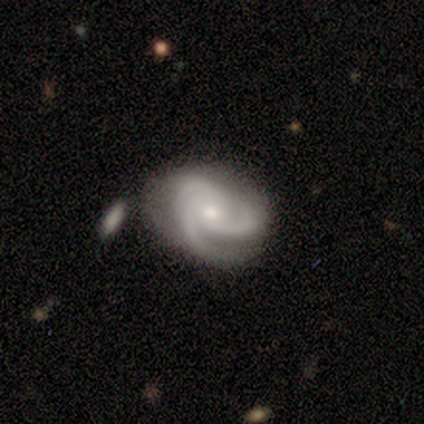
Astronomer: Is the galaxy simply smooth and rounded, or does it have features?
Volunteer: featured or disk — 100%.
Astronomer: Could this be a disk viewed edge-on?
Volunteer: no — 100%.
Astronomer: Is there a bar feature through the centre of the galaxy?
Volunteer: no — 88%.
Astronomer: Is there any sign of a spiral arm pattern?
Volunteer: yes — 100%.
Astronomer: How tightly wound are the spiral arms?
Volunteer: tight — 62%.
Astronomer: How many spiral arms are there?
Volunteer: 3 — 62%.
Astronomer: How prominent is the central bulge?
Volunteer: small — 75%.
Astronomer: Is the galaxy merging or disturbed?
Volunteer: none — 50%.